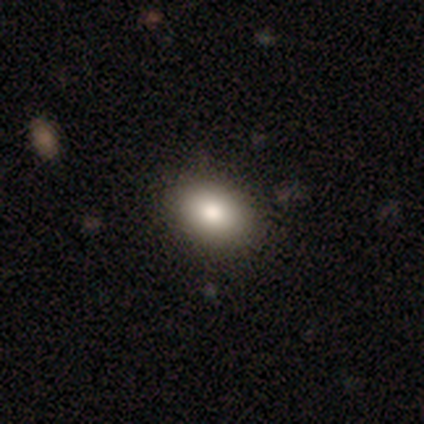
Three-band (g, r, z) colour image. It shows a smooth galaxy with no disk features (40%, tied with featured or disk) that is in between round and cigar-shaped (100%). Merging: none (100%).